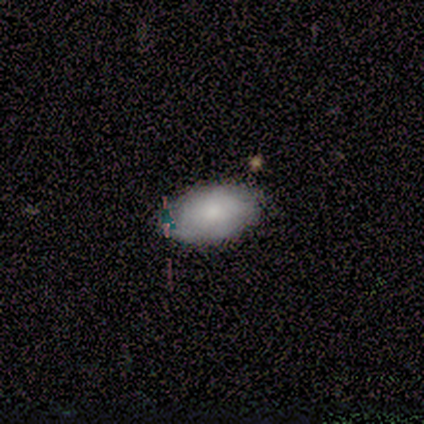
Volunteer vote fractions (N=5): Q: Smooth or featured?
A: smooth (40%); tied with: featured or disk (40%)
Q: How rounded?
A: in between (100%)
Q: Merging?
A: none (75%); runner-up: merger (25%)